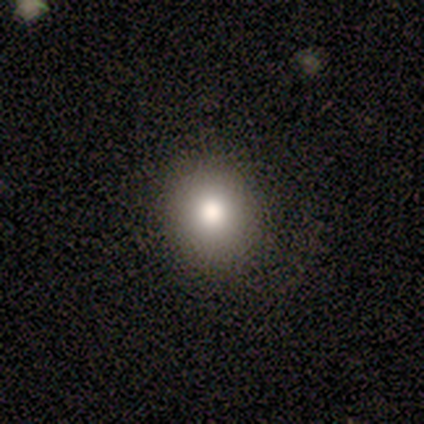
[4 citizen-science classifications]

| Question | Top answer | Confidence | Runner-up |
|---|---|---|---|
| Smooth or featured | smooth | 75% | featured or disk (25%) |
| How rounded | round | 100% | — |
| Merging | none | 100% | — |